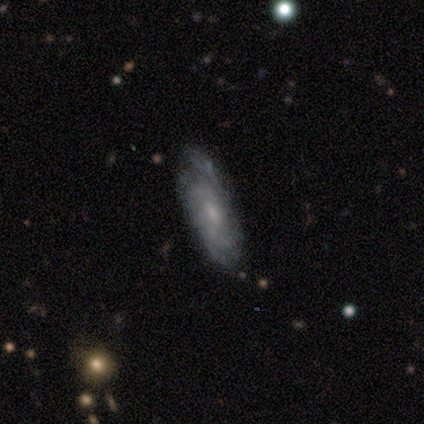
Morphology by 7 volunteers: Smooth or featured? featured or disk (71%)
Edge-on disk? no (80%)
Bar? weak (50%, tied with no)
Spiral arms? yes (75%)
Spiral winding? tight (100%)
Spiral arm count? 2 (67%)
Bulge size? small (75%)
Merging? none (43%, tied with minor disturbance)